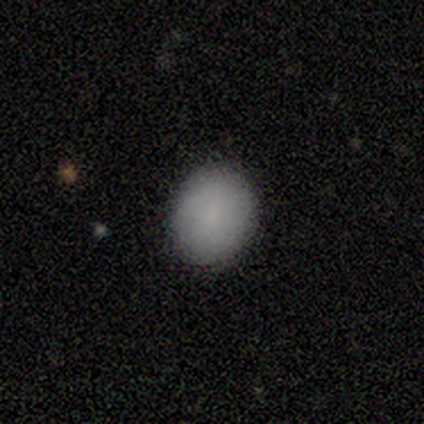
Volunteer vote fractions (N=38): A smooth galaxy with no disk features (84%) that is round (59%). Merging: none (89%).